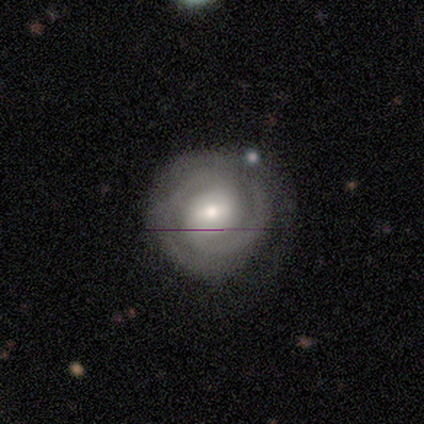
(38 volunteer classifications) This is likely a featured or disk galaxy (71%). It is clearly not viewed edge-on (96%). Bar: possibly weak (50%). Spiral arm pattern: clearly yes (88%). Spiral arm count: possibly 2 (57%). Spiral winding: possibly tight (57%). Central bulge: likely moderate (69%). Merging: clearly none (82%).